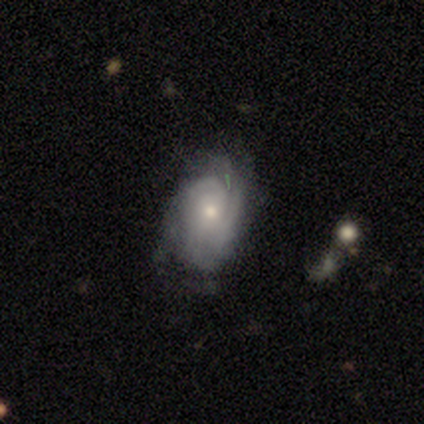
smooth-or-featured: featured or disk: 86% | smooth: 14% | star or artifact: 0%
  disk-edge-on: no: 83% | yes: 17%
    bar: no: 60% | weak: 40% | strong: 0%
    has-spiral-arms: yes: 100% | no: 0%
      spiral-winding: tight: 60% | medium: 20% | loose: 20%
      spiral-arm-count: 2: 40% (tied) | 3: 40% (tied) | can't tell: 20% | 1: 0% | 4: 0% | more than 4: 0%
    bulge-size: small: 60% | moderate: 40% | dominant: 0% | large: 0% | none: 0%
  merging: minor disturbance: 57% | none: 43% | major disturbance: 0% | merger: 0%